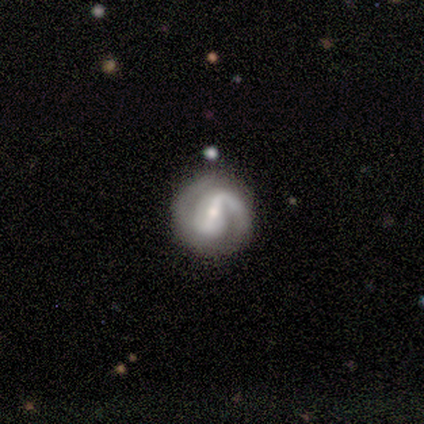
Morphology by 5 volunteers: Volunteers were most divided on "bar" (2-way tie): strong: 50%, weak: 50%, no: 0%; "bulge size" (2-way tie): moderate: 50%, small: 50%, dominant: 0%, large: 0%, none: 0%. More confident: edge-on disk — no (100%); spiral arms — yes (100%); spiral arm count — 2 (100%); smooth or featured — featured or disk (80%); merging — none (80%); spiral winding — tight (75%).